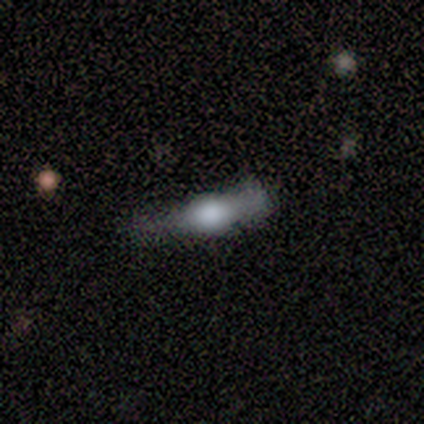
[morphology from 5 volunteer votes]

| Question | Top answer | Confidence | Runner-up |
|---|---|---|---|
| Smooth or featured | featured or disk | 80% | smooth (20%) |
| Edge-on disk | yes | 100% | — |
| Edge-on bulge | rounded | 75% | boxy (25%) |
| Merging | none | 40% | tied: minor disturbance (40%) |